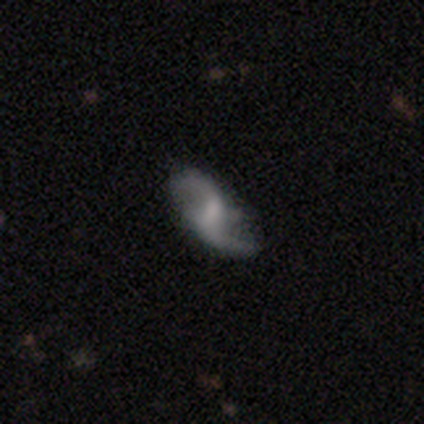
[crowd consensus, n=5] Morphology: type=featured or disk (100%); edge-on=no (100%); bar=weak (40%, tied with no); spiral arms=yes (100%); winding=loose (80%); arm count=2 (100%); bulge=small (40%, tied with none); merging=none (100%).